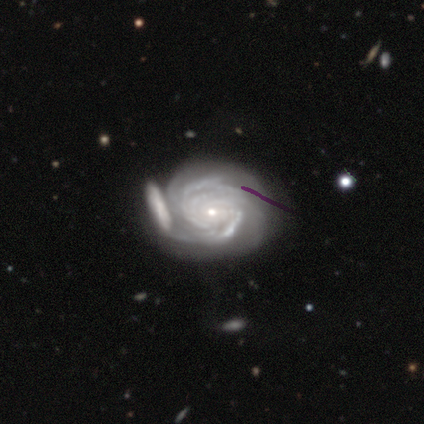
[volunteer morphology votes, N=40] A featured or disk galaxy (95%) with no bar (76%), tight (82%) spiral arms (100%) and a small central bulge (84%). Merging: merger (45%).